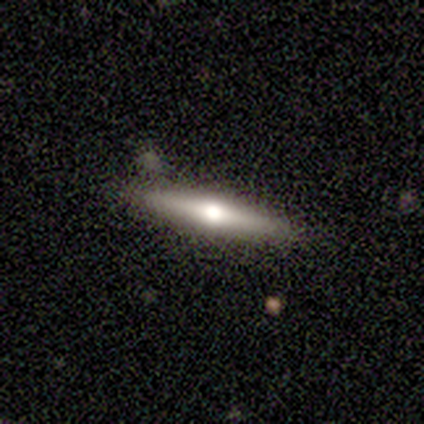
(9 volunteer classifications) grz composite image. It shows a featured or disk galaxy (67%) viewed edge-on (100%) with a rounded central bulge (100%). Merging: none (100%).